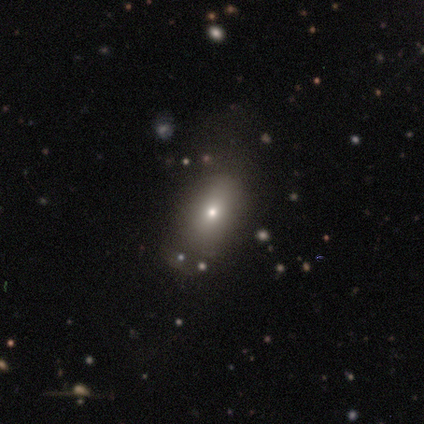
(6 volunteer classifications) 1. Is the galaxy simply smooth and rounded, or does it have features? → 100% smooth, 0% featured or disk, 0% star or artifact.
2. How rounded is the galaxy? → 50% in between, 33% round, 17% cigar-shaped.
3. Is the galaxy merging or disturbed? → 67% none, 17% major disturbance, 17% merger, 0% minor disturbance.